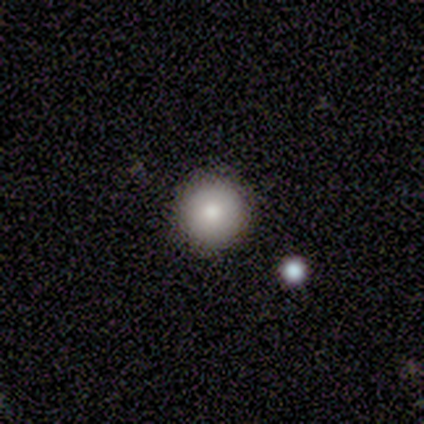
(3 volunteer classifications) A smooth galaxy with no disk features (100%) that is round (100%). Merging: none (100%).